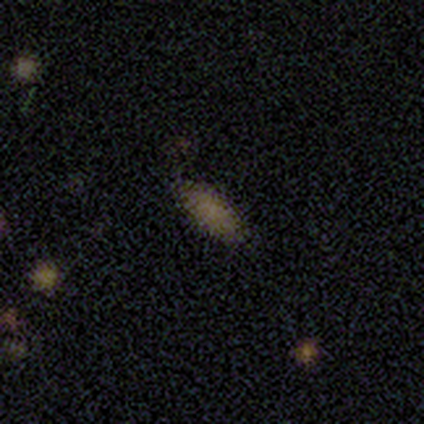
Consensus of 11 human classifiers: smooth 100%, featured or disk 0%, star or artifact 0%. Down the decision tree: how rounded — in between (91%); merging — none (91%).